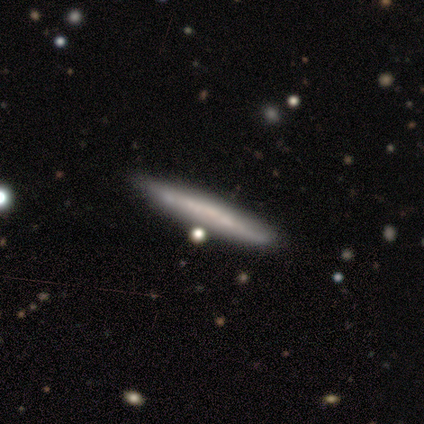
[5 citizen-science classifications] Smooth or featured: smooth — 40% (tied with featured or disk — 40%)
How rounded: cigar-shaped — 100%
Merging: none — 75% (merger — 25%)